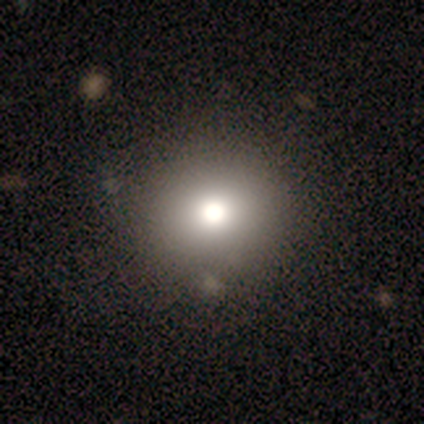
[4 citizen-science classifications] smooth 100%, featured or disk 0%, star or artifact 0%. Down the decision tree: how rounded — round (100%); merging — none (75%).